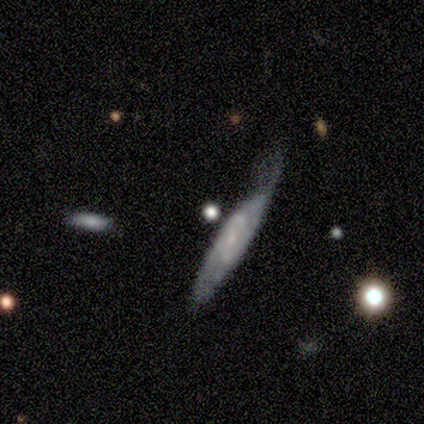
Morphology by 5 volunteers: smooth_or_featured: featured or disk (p=0.60) [alt: smooth p=0.40]
disk_edge_on: yes (p=0.67) [alt: no p=0.33]
edge_on_bulge: none (p=0.50) [tied with: rounded p=0.50]
merging: none (p=0.40) [tied with: minor disturbance p=0.40]